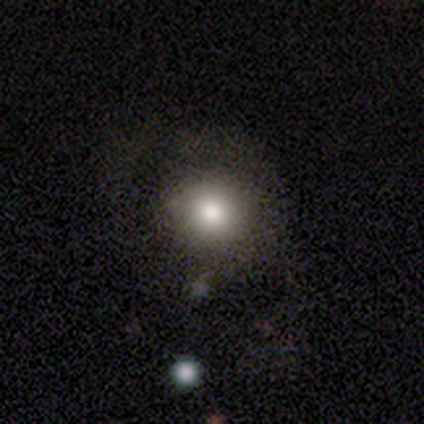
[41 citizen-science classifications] smooth-or-featured: smooth: 78% | featured or disk: 20% | star or artifact: 2%
  how-rounded: round: 94% | in between: 6% | cigar-shaped: 0%
  merging: none: 57% | major disturbance: 18% | minor disturbance: 12% | merger: 2%